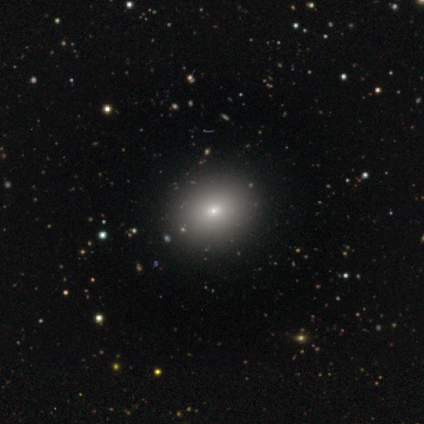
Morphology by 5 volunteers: A smooth galaxy with no disk features (60%) that is in between round and cigar-shaped (100%).

Vote fractions:
- Smooth or featured? smooth: 60% / featured or disk: 40% / star or artifact: 0%
- How rounded? in between: 100% / round: 0% / cigar-shaped: 0%
- Merging? none: 100% / minor disturbance: 0% / major disturbance: 0% / merger: 0%